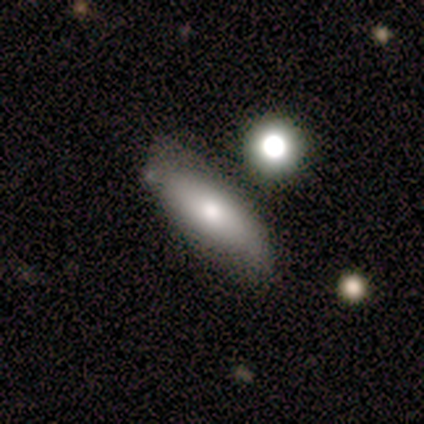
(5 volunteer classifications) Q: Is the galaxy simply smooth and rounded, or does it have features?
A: smooth — 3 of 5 (60%).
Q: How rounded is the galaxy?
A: cigar-shaped — 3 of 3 (100%).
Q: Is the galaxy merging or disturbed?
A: minor disturbance — 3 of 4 (75%).